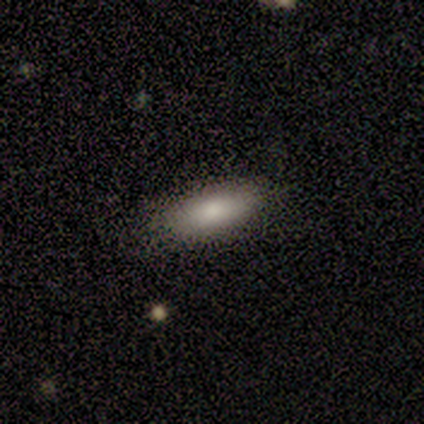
Q: Smooth or featured?
A: smooth (79%); runner-up: featured or disk (10%)
Q: How rounded?
A: in between (74%); runner-up: cigar-shaped (26%)
Q: Merging?
A: none (80%); runner-up: minor disturbance (20%)